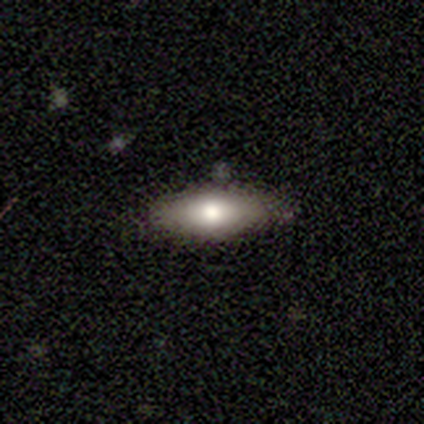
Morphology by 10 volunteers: Smooth or featured? smooth (50%)
How rounded? in between (100%)
Merging? none (78%)